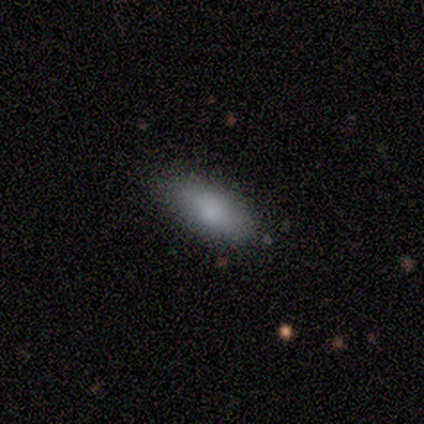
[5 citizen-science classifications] Morphology: type=smooth (100%); roundness=in between (100%); merging=none (100%).